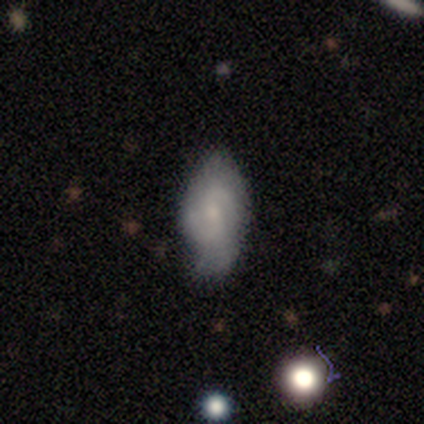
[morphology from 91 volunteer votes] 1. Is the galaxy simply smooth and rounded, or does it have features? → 53% featured or disk, 38% smooth, 9% star or artifact.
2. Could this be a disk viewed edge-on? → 98% no, 2% yes.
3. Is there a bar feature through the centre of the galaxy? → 51% no, 43% weak, 6% strong.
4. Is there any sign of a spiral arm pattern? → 85% yes, 15% no.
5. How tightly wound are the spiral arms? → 55% medium, 28% tight, 18% loose.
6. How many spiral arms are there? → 62% 2, 25% can't tell, 10% 3, 2% 4, 0% 1, 0% more than 4.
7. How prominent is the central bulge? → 62% small, 19% moderate, 15% none, 2% dominant, 2% large.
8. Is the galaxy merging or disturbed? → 58% none, 37% minor disturbance, 5% major disturbance, 0% merger.